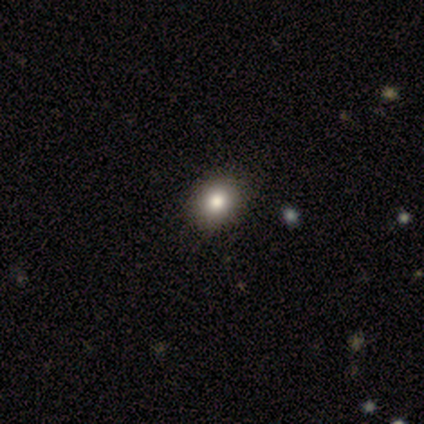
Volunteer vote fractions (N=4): Morphology: type=star or artifact (75%).